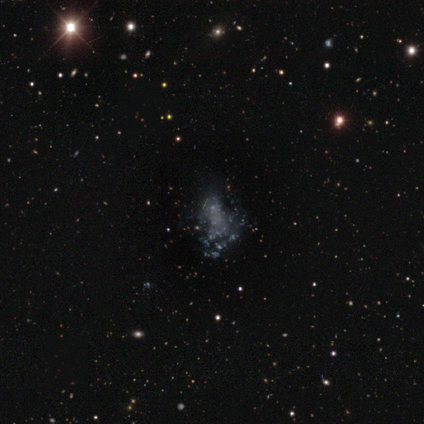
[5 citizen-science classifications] This is likely a featured or disk galaxy (60%). It is clearly not viewed edge-on (100%). Bar: clearly no (100%). Spiral arm pattern: clearly no (100%). Central bulge: clearly none (100%). Merging: likely none (75%).